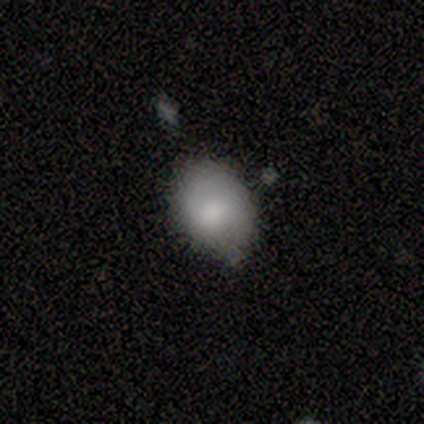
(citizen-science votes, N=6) Smooth or featured?
  - smooth: 67% *
  - featured or disk: 33%
  - star or artifact: 0%
How rounded?
  - in between: 75% *
  - round: 25%
  - cigar-shaped: 0%
Merging?
  - none: 83% *
  - minor disturbance: 17%
  - major disturbance: 0%
  - merger: 0%